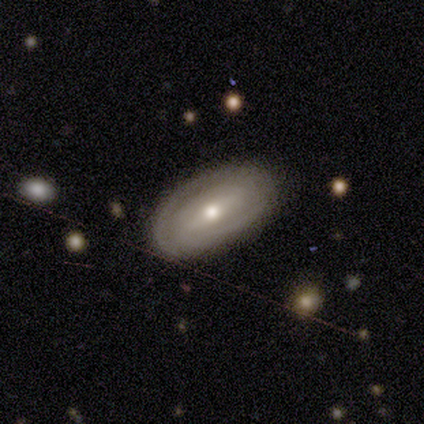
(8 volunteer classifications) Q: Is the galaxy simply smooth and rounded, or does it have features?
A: featured or disk — 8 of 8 (100%).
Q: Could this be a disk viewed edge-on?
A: no — 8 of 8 (100%).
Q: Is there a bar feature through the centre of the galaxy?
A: no — 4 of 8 (50%).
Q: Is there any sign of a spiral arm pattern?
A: yes — 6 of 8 (75%).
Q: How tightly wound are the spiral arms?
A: medium — 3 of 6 (50%).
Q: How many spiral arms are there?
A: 2 — 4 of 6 (67%).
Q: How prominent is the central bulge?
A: small — 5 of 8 (62%).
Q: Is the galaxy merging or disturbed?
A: none — 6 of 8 (75%).